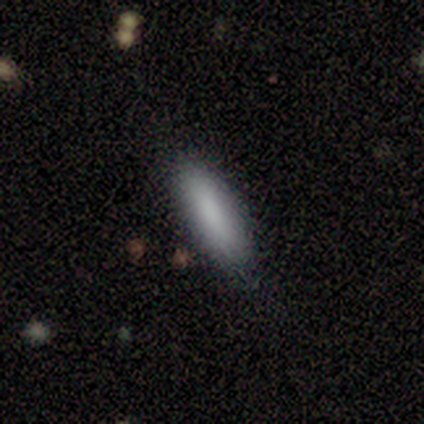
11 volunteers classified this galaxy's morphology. smooth-or-featured: smooth: 91% | star or artifact: 9% | featured or disk: 0%
  how-rounded: in between: 50% (tied) | cigar-shaped: 50% (tied) | round: 0%
  merging: none: 80% | minor disturbance: 20% | major disturbance: 0% | merger: 0%